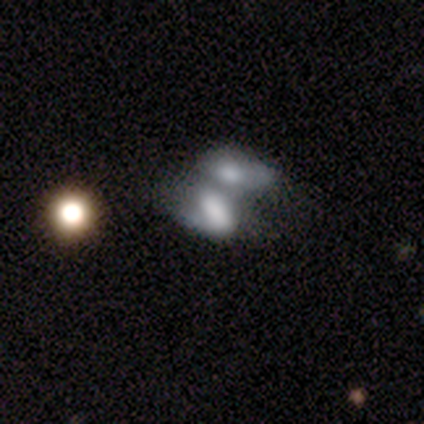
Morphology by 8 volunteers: Q: Smooth or featured?
A: smooth (62%); runner-up: featured or disk (38%)
Q: How rounded?
A: in between (100%)
Q: Merging?
A: merger (88%); runner-up: none (12%)